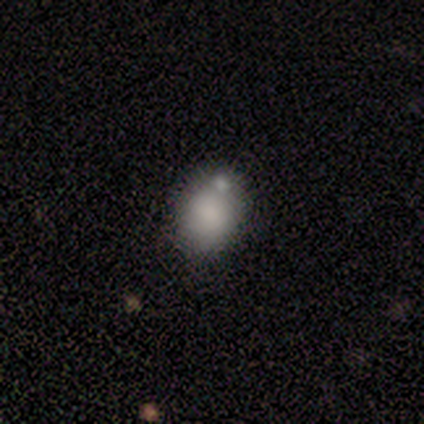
Morphology: type=smooth (100%); roundness=in between (80%); merging=none (100%).